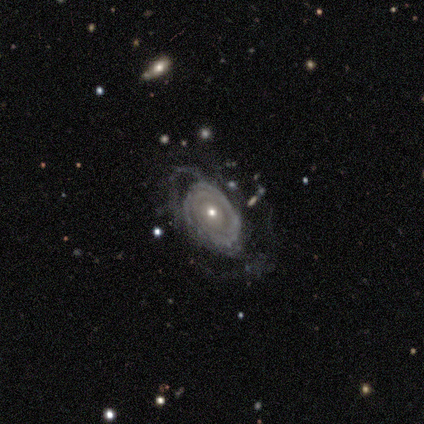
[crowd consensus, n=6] Q: Smooth or featured?
A: featured or disk (67%); runner-up: star or artifact (33%)
Q: Edge-on disk?
A: no (100%)
Q: Bar?
A: no (75%); runner-up: strong (25%)
Q: Spiral arms?
A: yes (100%)
Q: Spiral winding?
A: tight (50%); tied with: medium (50%)
Q: Spiral arm count?
A: 2 (25%); tied with: 3 (25%); 4 (25%); can't tell (25%)
Q: Bulge size?
A: moderate (100%)
Q: Merging?
A: none (75%); runner-up: major disturbance (25%)